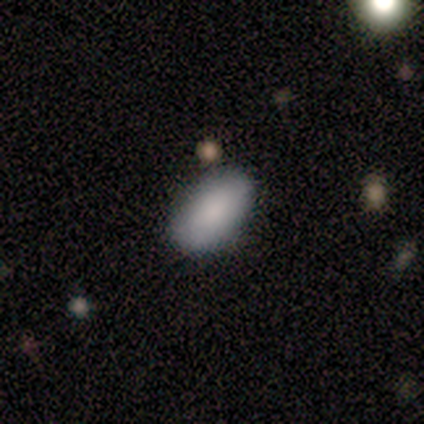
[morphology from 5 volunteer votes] Smooth or featured? 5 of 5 (100%) said smooth. How rounded? 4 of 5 (80%) said in between. Merging? 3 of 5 (60%) said none.